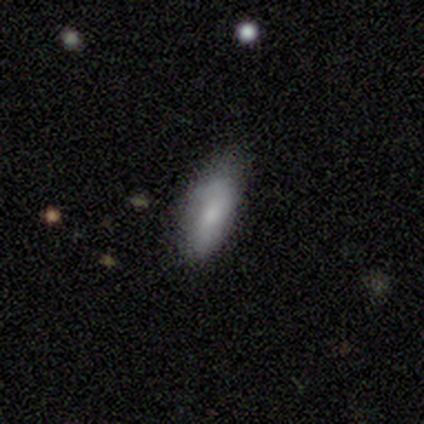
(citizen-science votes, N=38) Smooth or featured?
  - smooth: 66% *
  - featured or disk: 21%
  - star or artifact: 13%
How rounded?
  - in between: 76% *
  - cigar-shaped: 24%
  - round: 0%
Merging?
  - none: 70% *
  - minor disturbance: 21%
  - major disturbance: 6%
  - merger: 3%